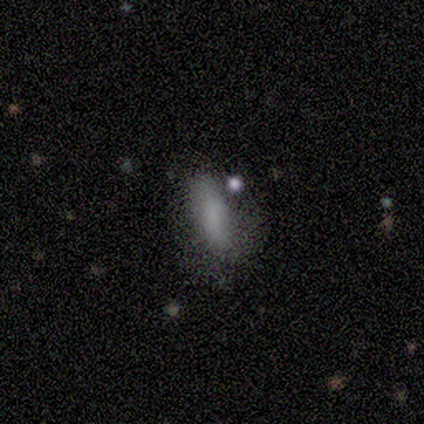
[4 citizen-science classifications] A smooth galaxy with no disk features (100%) that is in between round and cigar-shaped (75%).

Vote fractions:
- Smooth or featured? smooth: 100% / featured or disk: 0% / star or artifact: 0%
- How rounded? in between: 75% / cigar-shaped: 25% / round: 0%
- Merging? none: 75% / minor disturbance: 25% / major disturbance: 0% / merger: 0%